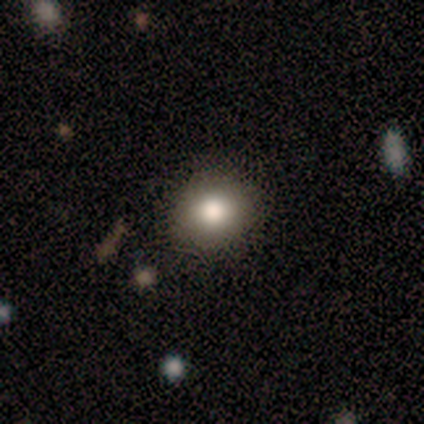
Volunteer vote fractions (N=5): Volunteers were most divided on "how rounded": round: 60%, in between: 40%, cigar-shaped: 0%. More confident: smooth or featured — smooth (100%); merging — none (100%).